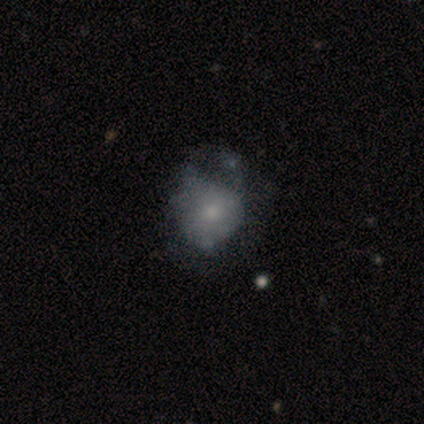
A smooth galaxy with no disk features (44%, tied with featured or disk) that is in between round and cigar-shaped (57%).

Vote fractions:
- Smooth or featured? smooth: 44% (tied) / featured or disk: 44% (tied) / star or artifact: 12%
- How rounded? in between: 57% / round: 43% / cigar-shaped: 0%
- Merging? none: 50% / minor disturbance: 43% / major disturbance: 7% / merger: 0%